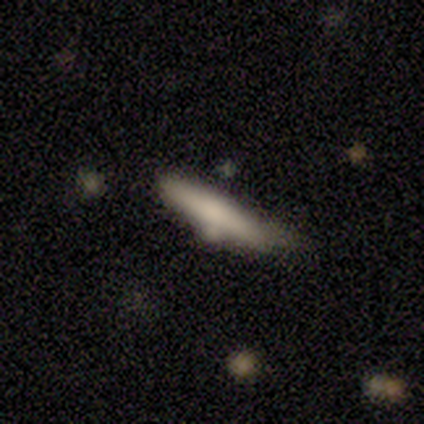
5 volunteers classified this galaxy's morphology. Overall: smooth (60%; featured or disk 40%). How rounded: cigar-shaped (67%; in between 33%). Merging: minor disturbance (40%, tied with merger).